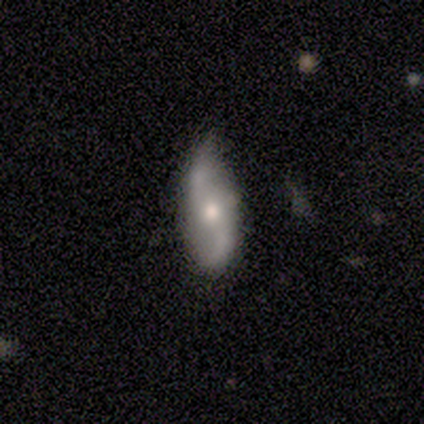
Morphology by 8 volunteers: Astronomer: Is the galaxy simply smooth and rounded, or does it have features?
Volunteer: featured or disk — 75%.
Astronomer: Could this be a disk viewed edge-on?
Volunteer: no — 100%.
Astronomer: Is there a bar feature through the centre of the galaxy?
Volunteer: no — 67%.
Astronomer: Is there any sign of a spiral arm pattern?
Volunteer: yes — 100%.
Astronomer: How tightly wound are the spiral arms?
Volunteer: loose — 67%.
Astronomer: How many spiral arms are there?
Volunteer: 2 — 100%.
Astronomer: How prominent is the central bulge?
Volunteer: moderate — 50% (runner-up: small, 33%).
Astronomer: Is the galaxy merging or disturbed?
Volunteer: none — 75%.